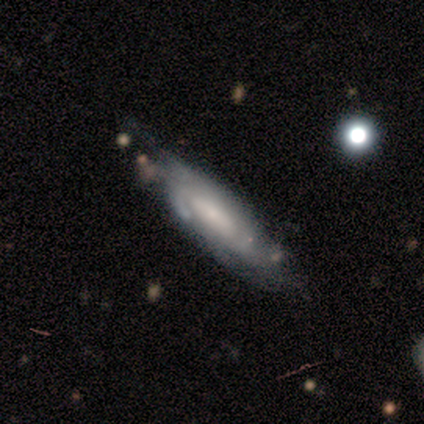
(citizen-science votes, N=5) A featured or disk galaxy (100%) with no bar (75%), tight (50%, tied with medium) spiral arms (100%) and a moderate central bulge (50%, tied with small). Merging: minor disturbance (80%).